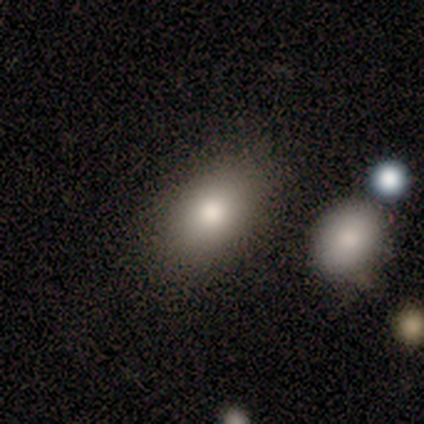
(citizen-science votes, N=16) Overall: smooth (81%). How rounded: in between (92%). Merging: none (94%).